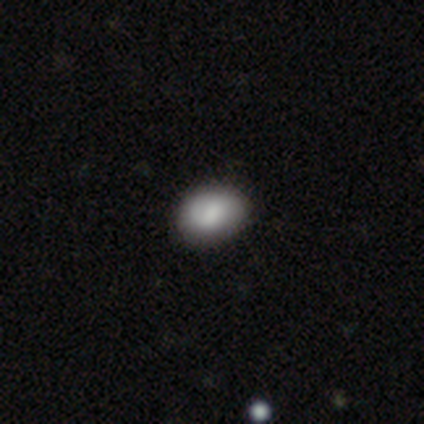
Volunteers were most divided on "how rounded": in between: 75%, round: 25%, cigar-shaped: 0%. More confident: merging — none (100%); smooth or featured — smooth (80%).